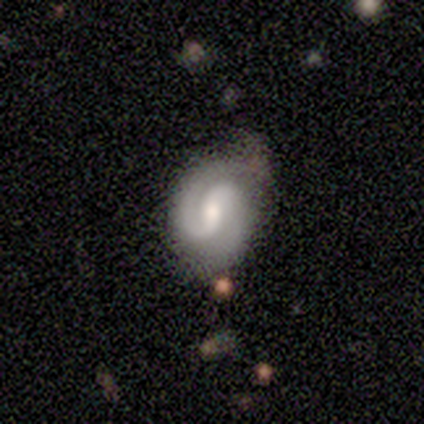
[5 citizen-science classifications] A featured or disk galaxy (100%) with a weak bar (80%), 2 (100%) medium (80%) spiral arms (100%) and a moderate central bulge (100%). Merging: none (80%).